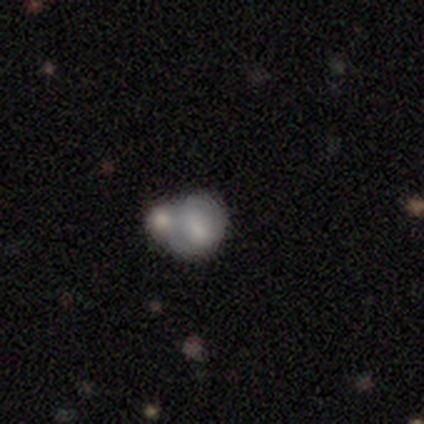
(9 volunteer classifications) Smooth or featured?
  - smooth: 78% *
  - featured or disk: 11%
  - star or artifact: 11%
How rounded?
  - round: 57% *
  - in between: 43%
  - cigar-shaped: 0%
Merging?
  - merger: 88% *
  - major disturbance: 12%
  - none: 0%
  - minor disturbance: 0%